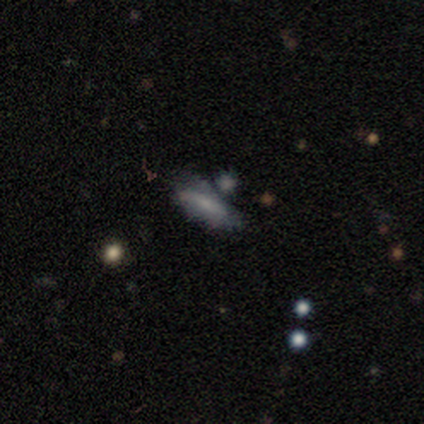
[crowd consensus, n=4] Overall: smooth (100%). How rounded: in between (75%). Merging: none (75%).